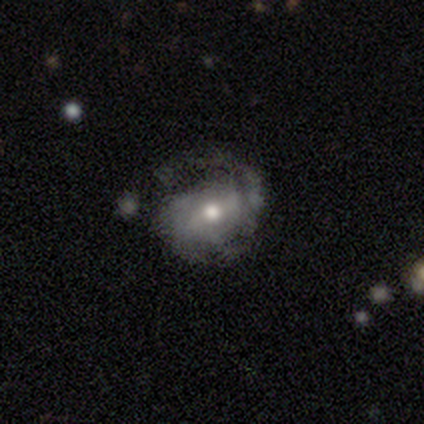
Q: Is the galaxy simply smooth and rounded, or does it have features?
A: featured or disk — 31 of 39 (79%).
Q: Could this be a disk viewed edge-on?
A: no — 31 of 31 (100%).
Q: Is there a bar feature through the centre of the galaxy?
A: weak — 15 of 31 (48%).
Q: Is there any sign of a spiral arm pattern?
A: yes — 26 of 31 (84%).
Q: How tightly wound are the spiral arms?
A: tight — 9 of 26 (35%, tied with loose).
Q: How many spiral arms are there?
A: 2 — 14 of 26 (54%).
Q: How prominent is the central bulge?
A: moderate — 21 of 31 (68%).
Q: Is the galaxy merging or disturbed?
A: none — 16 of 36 (44%).